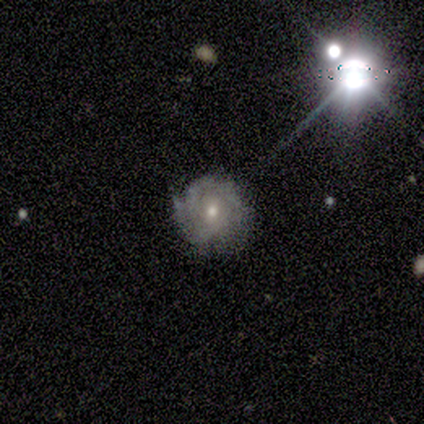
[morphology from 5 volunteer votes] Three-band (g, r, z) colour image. It shows a featured or disk galaxy (80%) with no bar (100%), 2 (67%) tight (67%) spiral arms (100%) and a moderate central bulge (67%). Merging: none (75%).